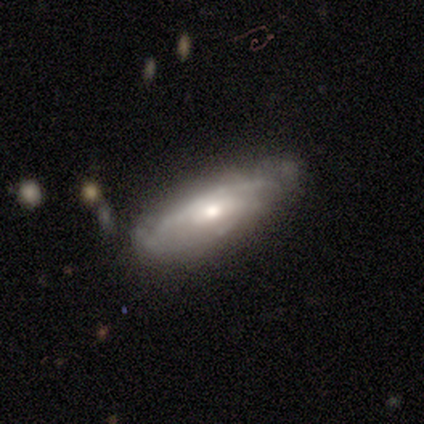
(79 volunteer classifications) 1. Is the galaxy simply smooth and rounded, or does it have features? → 73% featured or disk, 24% smooth, 3% star or artifact.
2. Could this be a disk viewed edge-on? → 78% no, 22% yes.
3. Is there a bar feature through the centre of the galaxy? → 67% no, 27% weak, 7% strong.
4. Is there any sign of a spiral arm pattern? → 80% yes, 20% no.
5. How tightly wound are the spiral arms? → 44% tight, 42% medium, 14% loose.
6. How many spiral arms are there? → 61% can't tell, 19% 3, 17% 2, 3% 1, 0% 4, 0% more than 4.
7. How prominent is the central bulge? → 71% moderate, 18% small, 7% none, 2% dominant, 2% large.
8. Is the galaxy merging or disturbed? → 36% none, 12% minor disturbance, 3% major disturbance, 0% merger.